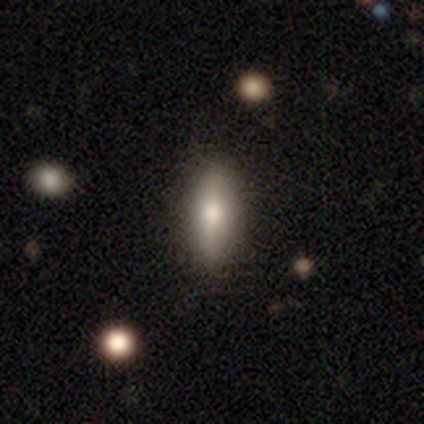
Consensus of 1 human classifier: Smooth or featured: featured or disk — 100%
Edge-on disk: yes — 100%
Edge-on bulge: rounded — 100%
Merging: none — 100%